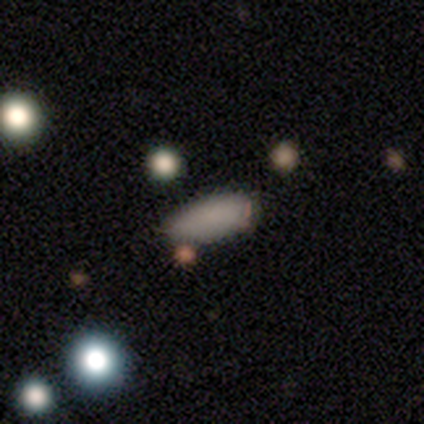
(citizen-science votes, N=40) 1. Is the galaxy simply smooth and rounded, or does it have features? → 85% smooth, 10% star or artifact, 5% featured or disk.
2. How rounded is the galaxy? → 74% in between, 24% cigar-shaped, 3% round.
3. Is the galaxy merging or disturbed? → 56% none, 31% minor disturbance, 8% major disturbance, 6% merger.